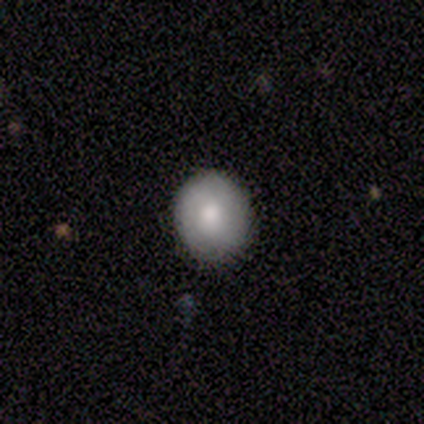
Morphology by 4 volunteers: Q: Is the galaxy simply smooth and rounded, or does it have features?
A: smooth — 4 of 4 (100%).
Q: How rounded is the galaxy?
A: round — 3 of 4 (75%).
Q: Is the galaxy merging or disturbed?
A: none — 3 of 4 (75%).